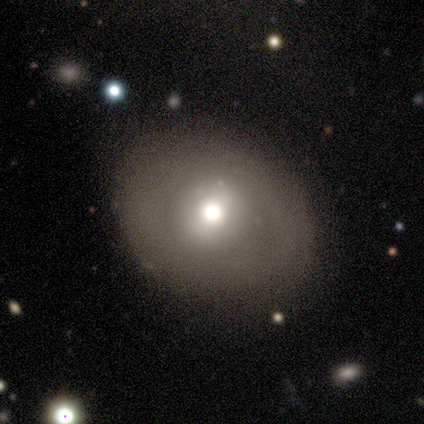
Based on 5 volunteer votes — This is likely a featured or disk galaxy (60%). It is clearly not viewed edge-on (100%). Bar: likely no (67%). Spiral arm pattern: likely no (67%). Central bulge: clearly moderate (100%). Merging: likely minor disturbance (67%).